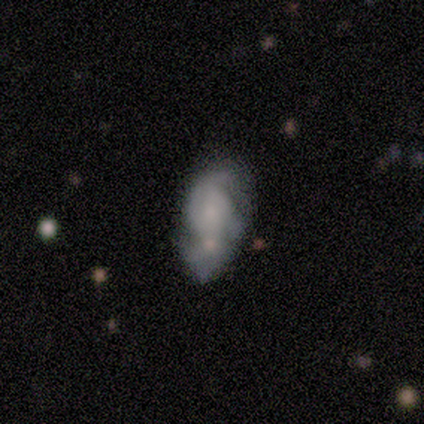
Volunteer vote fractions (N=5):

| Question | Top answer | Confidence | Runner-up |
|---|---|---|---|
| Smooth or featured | smooth | 80% | featured or disk (20%) |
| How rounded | in between | 100% | — |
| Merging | none | 40% | tied: merger (40%) |